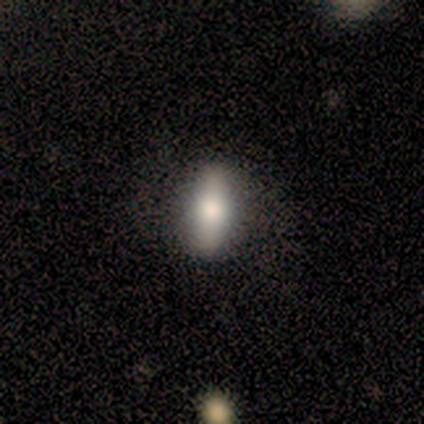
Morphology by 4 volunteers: Smooth or featured: smooth — 100%
How rounded: in between — 50% (tied with cigar-shaped — 50%)
Merging: none — 100%